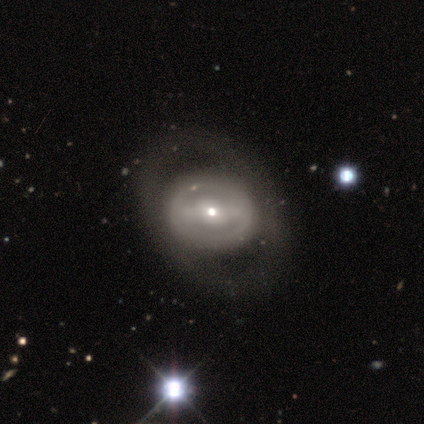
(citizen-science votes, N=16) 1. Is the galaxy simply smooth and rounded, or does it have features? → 56% featured or disk, 25% smooth, 19% star or artifact.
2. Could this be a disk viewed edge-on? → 78% no, 22% yes.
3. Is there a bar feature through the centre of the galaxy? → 71% no, 29% weak, 0% strong.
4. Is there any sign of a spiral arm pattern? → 86% no, 14% yes.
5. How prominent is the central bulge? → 57% small, 43% moderate, 0% dominant, 0% large, 0% none.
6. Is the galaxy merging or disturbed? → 92% none, 8% minor disturbance, 0% major disturbance, 0% merger.